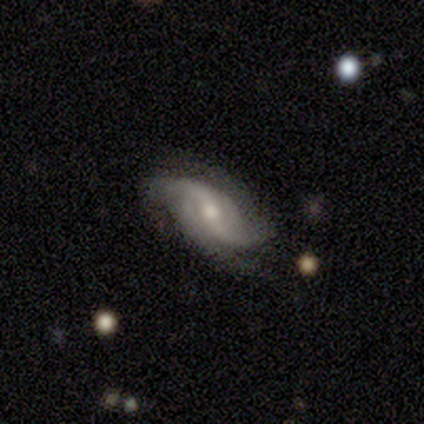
This is clearly a featured or disk galaxy (100%). It is clearly not viewed edge-on (80%). Bar: likely weak (75%). Spiral arm pattern: clearly yes (100%). Spiral arm count: clearly 2 (100%). Spiral winding: likely loose (75%). Central bulge: likely moderate (75%). Merging: clearly none (80%).